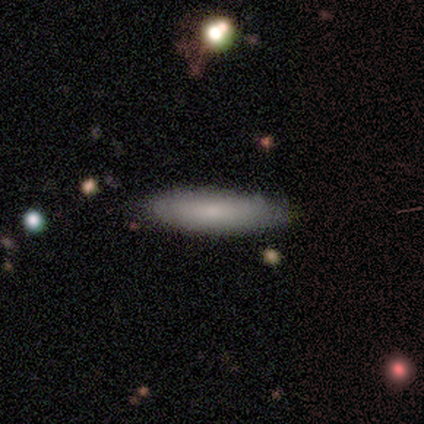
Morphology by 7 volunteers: This is clearly a smooth galaxy (86%). How rounded: likely in between (67%). Merging: clearly none (100%).